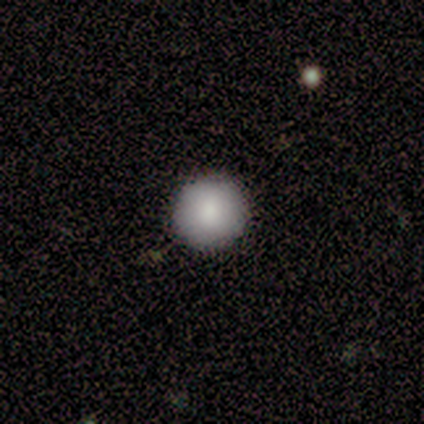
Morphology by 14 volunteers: smooth_or_featured: smooth (p=0.79) [alt: star or artifact p=0.14]
how_rounded: round (p=1.00)
merging: none (p=0.92) [alt: major disturbance p=0.08]